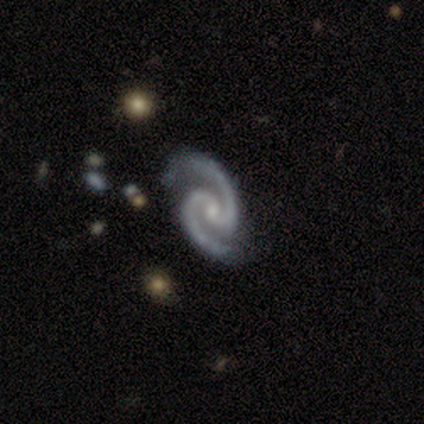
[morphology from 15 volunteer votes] Volunteers were most divided on "bar" (2-way tie): weak: 47%, no: 47%, strong: 7%. More confident: smooth or featured — featured or disk (100%); edge-on disk — no (100%); spiral arms — yes (100%); spiral arm count — 2 (93%); merging — none (73%); spiral winding — medium (67%); bulge size — small (53%).